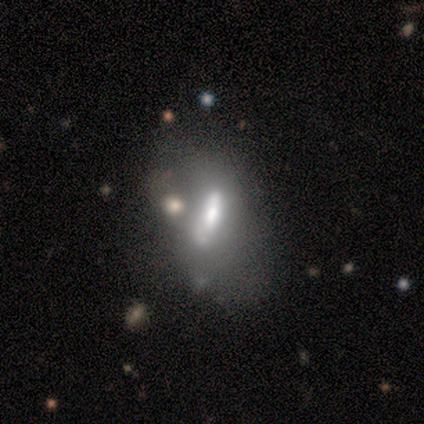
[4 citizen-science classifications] Smooth or featured: featured or disk — 100%
Edge-on disk: no — 75% (yes — 25%)
Bar: strong — 33% (tied with weak — 33%; no — 33%)
Spiral arms: no — 100%
Bulge size: moderate — 67% (small — 33%)
Merging: none — 50% (tied with minor disturbance — 50%)